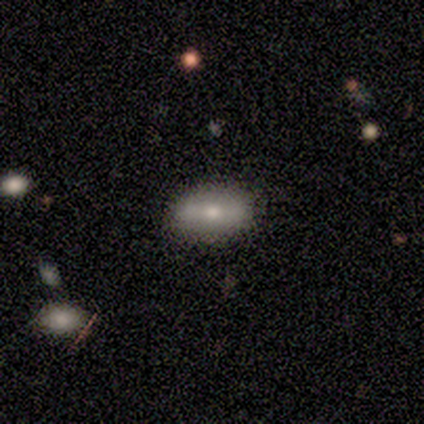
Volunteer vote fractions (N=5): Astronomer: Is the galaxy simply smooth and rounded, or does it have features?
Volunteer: smooth — 80%.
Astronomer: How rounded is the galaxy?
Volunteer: in between — 100%.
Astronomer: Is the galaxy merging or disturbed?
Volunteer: none — 100%.